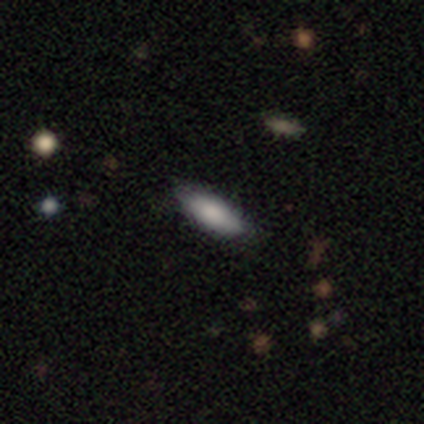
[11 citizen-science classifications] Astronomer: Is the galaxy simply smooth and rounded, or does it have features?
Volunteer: smooth — 64%.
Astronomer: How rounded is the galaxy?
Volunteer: cigar-shaped — 57% (runner-up: in between, 43%).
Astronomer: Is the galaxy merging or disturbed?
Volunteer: none — 100%.